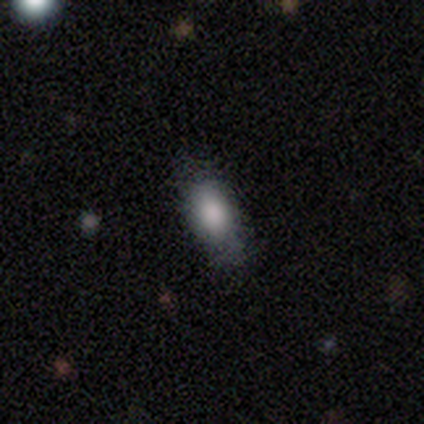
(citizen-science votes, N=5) smooth_or_featured: smooth (p=0.60) [alt: featured or disk p=0.20]
how_rounded: in between (p=1.00)
merging: none (p=0.75) [alt: minor disturbance p=0.25]